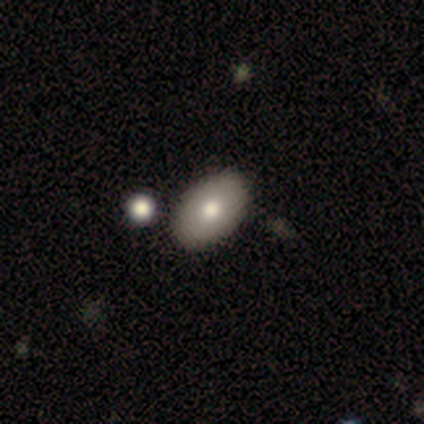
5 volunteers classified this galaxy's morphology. smooth 80%, star or artifact 20%, featured or disk 0%. Down the decision tree: how rounded — in between (100%); merging — none (50%, tied with merger).